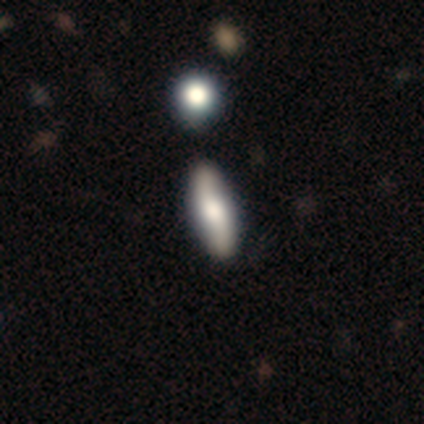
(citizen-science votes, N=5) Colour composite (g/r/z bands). It shows a smooth galaxy with no disk features (40%, tied with featured or disk) that is in between round and cigar-shaped (100%). Merging: none (100%).